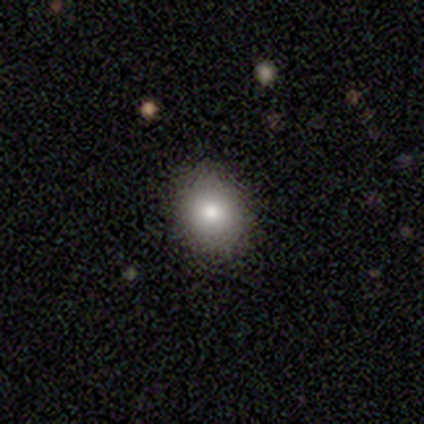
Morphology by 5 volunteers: Smooth or featured?
  - smooth: 100% *
  - featured or disk: 0%
  - star or artifact: 0%
How rounded?
  - round: 60% *
  - in between: 40%
  - cigar-shaped: 0%
Merging?
  - none: 80% *
  - minor disturbance: 20%
  - major disturbance: 0%
  - merger: 0%